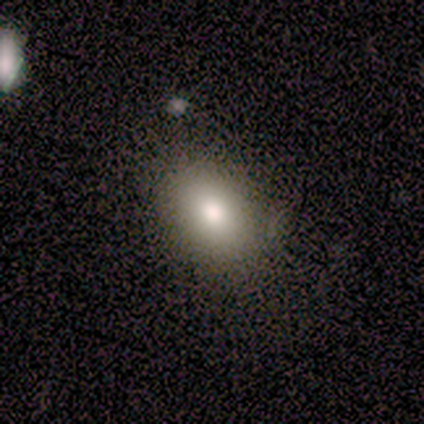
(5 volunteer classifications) Smooth or featured?
  - smooth: 100% *
  - featured or disk: 0%
  - star or artifact: 0%
How rounded?
  - round: 60% *
  - in between: 40%
  - cigar-shaped: 0%
Merging?
  - none: 60% *
  - minor disturbance: 40%
  - major disturbance: 0%
  - merger: 0%